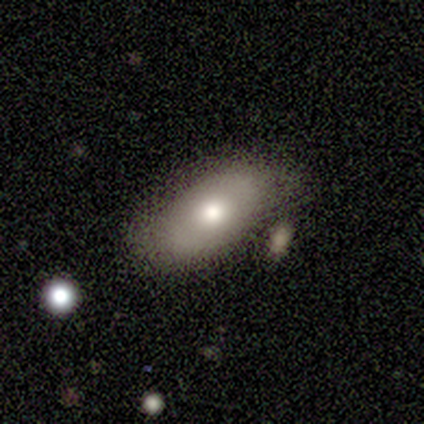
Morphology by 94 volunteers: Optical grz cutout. It shows a smooth galaxy with no disk features (67%) that is in between round and cigar-shaped (90%). Merging: none (60%).